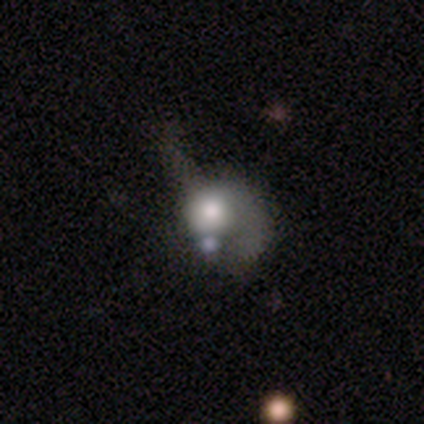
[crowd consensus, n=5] Q: Smooth or featured?
A: star or artifact (60%); runner-up: smooth (20%)